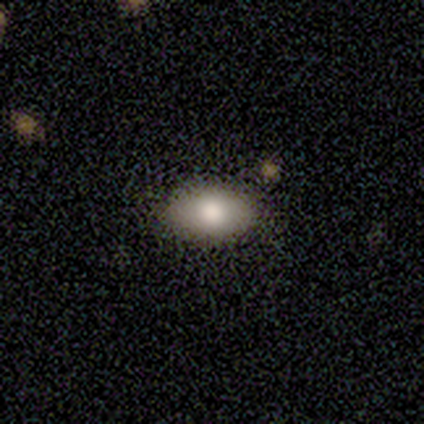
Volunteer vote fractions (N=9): Smooth or featured: smooth — 89% (star or artifact — 11%)
How rounded: in between — 100%
Merging: none — 100%